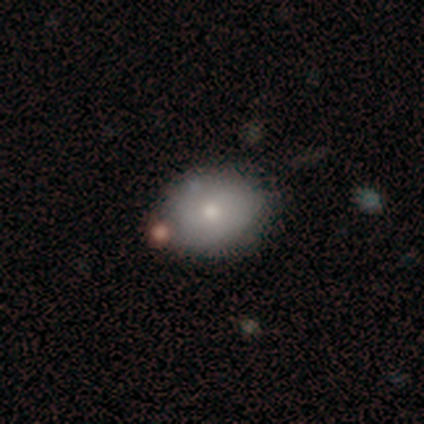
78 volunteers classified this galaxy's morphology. smooth 74%, featured or disk 22%, star or artifact 4%. Down the decision tree: how rounded — in between (64%); merging — none (35%).